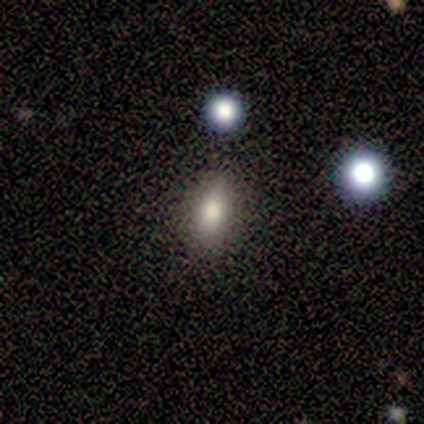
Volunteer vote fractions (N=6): smooth 100%, featured or disk 0%, star or artifact 0%. Down the decision tree: how rounded — in between (67%); merging — none (100%).